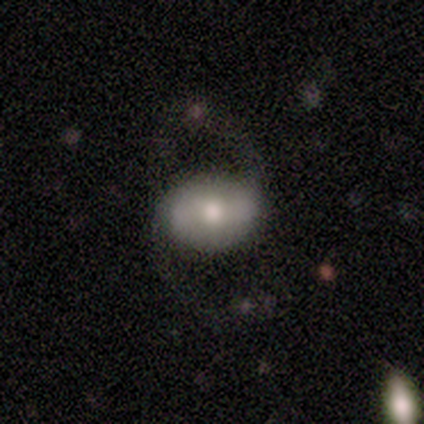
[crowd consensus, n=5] This is clearly a featured or disk galaxy (80%). It is clearly not viewed edge-on (100%). Bar: possibly strong (50%). Spiral arm pattern: likely yes (75%). Spiral arm count: clearly 2 (100%). Spiral winding: marginally tight (33%, tied with medium and loose). Central bulge: likely moderate (75%). Merging: clearly none (80%).